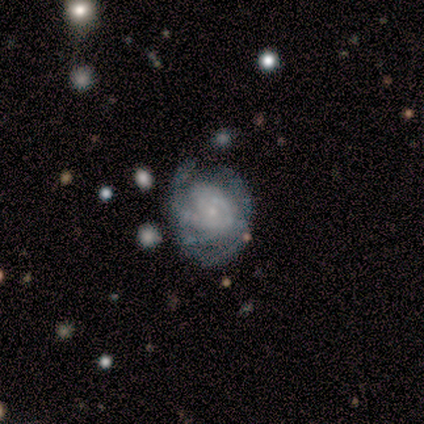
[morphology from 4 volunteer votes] featured or disk 75%, star or artifact 25%, smooth 0%. Down the decision tree: edge-on disk — no (100%); bar — strong (33%, tied with weak and no); spiral arms — yes (67%); spiral arm count — 4 (100%); spiral winding — tight (50%, tied with medium); bulge size — small (100%); merging — none (67%).